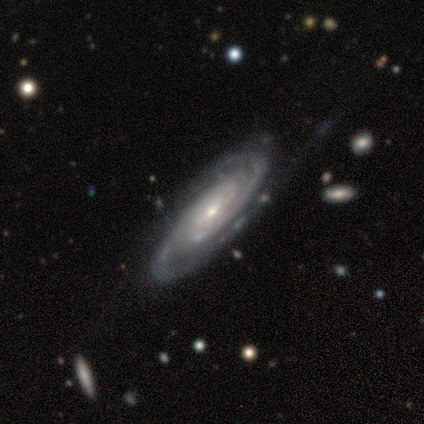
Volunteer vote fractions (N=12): Q: Smooth or featured?
A: featured or disk (100%)
Q: Edge-on disk?
A: no (100%)
Q: Bar?
A: no (67%); runner-up: weak (25%)
Q: Spiral arms?
A: yes (100%)
Q: Spiral winding?
A: tight (92%); runner-up: medium (8%)
Q: Spiral arm count?
A: 2 (67%); runner-up: can't tell (25%)
Q: Bulge size?
A: small (75%); runner-up: moderate (17%)
Q: Merging?
A: none (75%); runner-up: minor disturbance (17%)